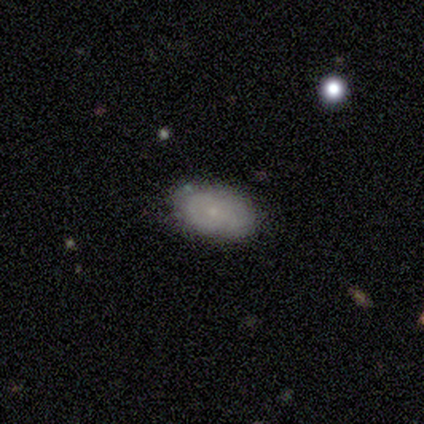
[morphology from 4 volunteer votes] Volunteers were most divided on "smooth or featured" (2-way tie): smooth: 50%, featured or disk: 50%, star or artifact: 0%. More confident: how rounded — in between (100%); merging — none (75%).